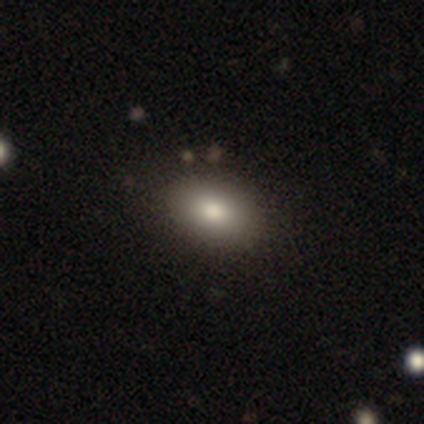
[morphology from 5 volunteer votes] smooth 80%, featured or disk 20%, star or artifact 0%. Down the decision tree: how rounded — in between (75%); merging — none (60%).